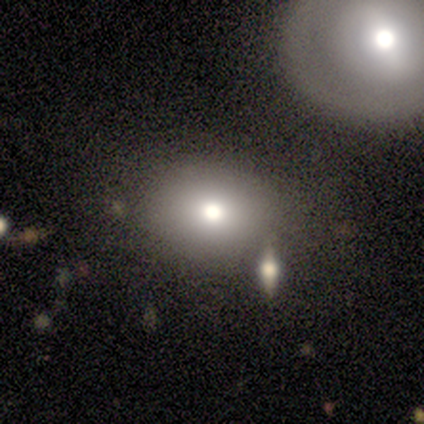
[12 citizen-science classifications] Morphology: type=smooth (75%); roundness=round (67%); merging=none (73%).